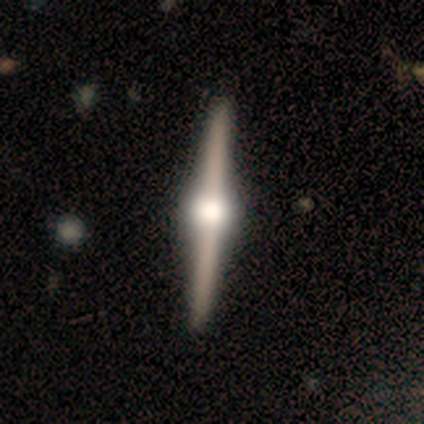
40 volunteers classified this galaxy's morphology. Volunteers were most divided on "smooth or featured": featured or disk: 92%, smooth: 8%, star or artifact: 0%. More confident: edge-on disk — yes (100%); edge-on bulge — rounded (95%); merging — none (90%).